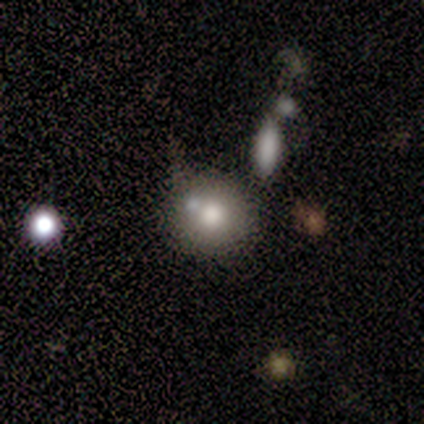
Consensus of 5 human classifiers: This is clearly a smooth galaxy (80%). How rounded: clearly round (100%). Merging: likely none (60%).